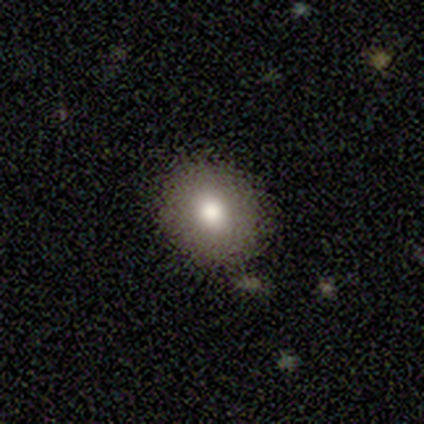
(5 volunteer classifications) A smooth galaxy with no disk features (80%) that is round (75%). Merging: none (80%).